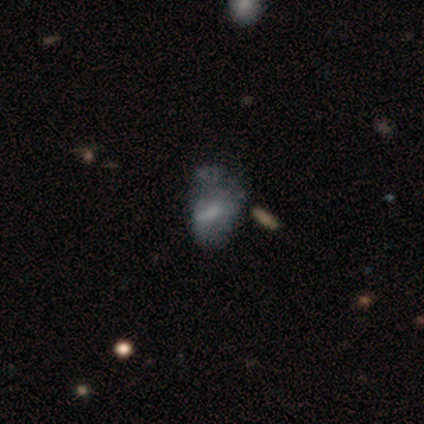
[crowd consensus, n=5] A smooth galaxy with no disk features (40%, tied with featured or disk) that is in between round and cigar-shaped (100%). Merging: none (50%, tied with minor disturbance).